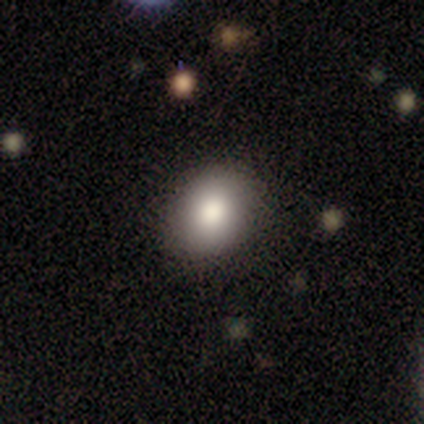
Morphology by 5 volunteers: Overall: smooth (100%). How rounded: in between (100%). Merging: none (80%).